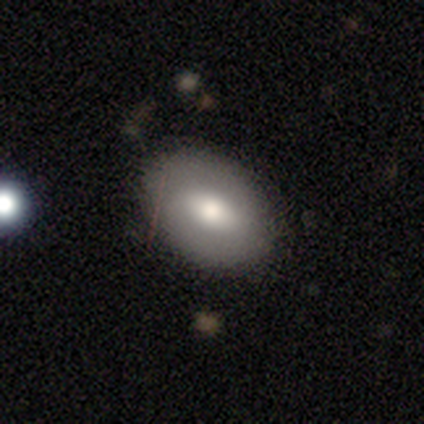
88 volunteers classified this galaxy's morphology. Smooth or featured? smooth (67%)
How rounded? in between (83%)
Merging? none (77%)